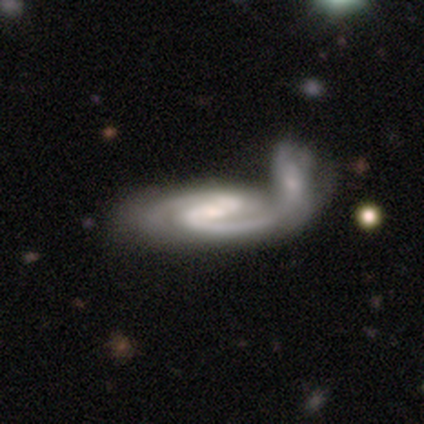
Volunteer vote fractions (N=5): Smooth or featured: featured or disk — 100%
Edge-on disk: no — 100%
Bar: strong — 40% (tied with no — 40%)
Spiral arms: yes — 100%
Spiral winding: tight — 80% (loose — 20%)
Spiral arm count: 2 — 80% (can't tell — 20%)
Bulge size: moderate — 40% (tied with small — 40%)
Merging: major disturbance — 40% (tied with merger — 40%)